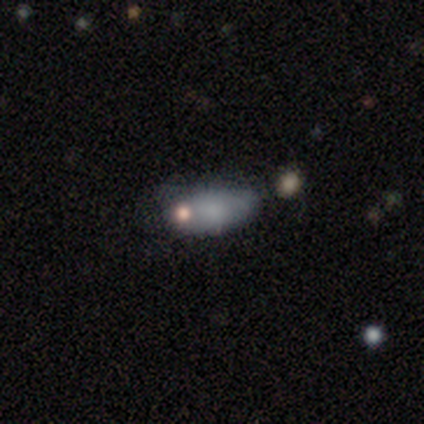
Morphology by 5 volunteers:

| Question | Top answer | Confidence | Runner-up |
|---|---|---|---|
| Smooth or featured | smooth | 60% | featured or disk (20%) |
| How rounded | in between | 100% | — |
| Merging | none | 50% | minor disturbance (25%) |